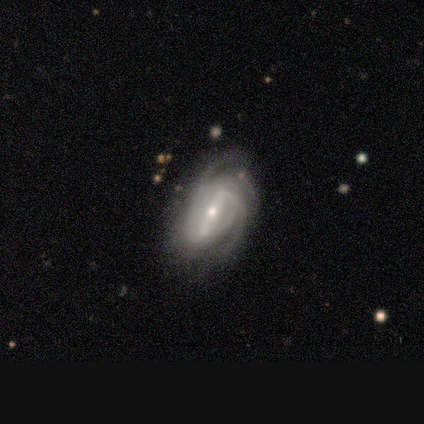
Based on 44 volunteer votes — Smooth or featured: featured or disk — 89% (smooth — 7%)
Edge-on disk: no — 100%
Bar: strong — 69% (weak — 28%)
Spiral arms: yes — 92% (no — 8%)
Spiral winding: medium — 47% (tight — 44%)
Spiral arm count: 3 — 39% (2 — 28%)
Bulge size: small — 54% (moderate — 44%)
Merging: none — 64% (minor disturbance — 21%)